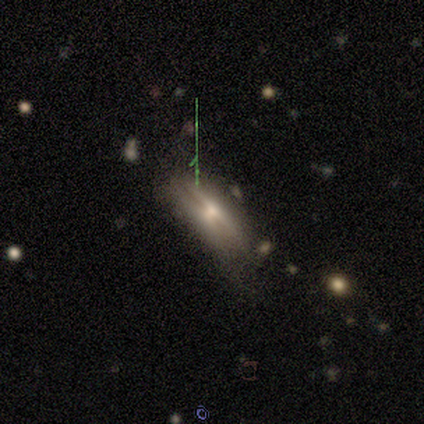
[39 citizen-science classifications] Smooth or featured: featured or disk — 59% (smooth — 33%)
Edge-on disk: yes — 78% (no — 22%)
Edge-on bulge: rounded — 78% (none — 17%)
Merging: none — 69% (minor disturbance — 19%)